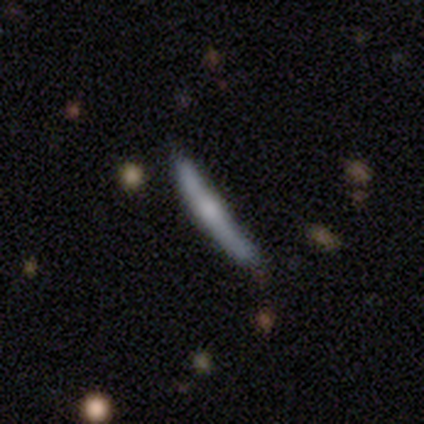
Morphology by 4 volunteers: Overall: smooth (100%). How rounded: cigar-shaped (100%). Merging: none (75%).